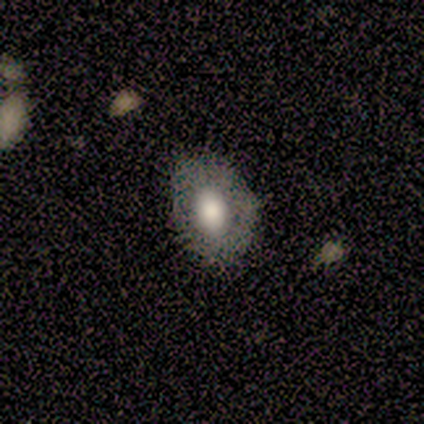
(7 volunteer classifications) Smooth or featured? 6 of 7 (86%) said smooth. How rounded? 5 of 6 (83%) said in between. Merging? 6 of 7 (86%) said none.